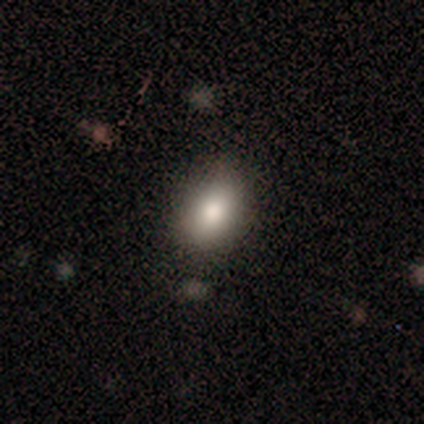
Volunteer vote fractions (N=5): A smooth galaxy with no disk features (100%) that is in between round and cigar-shaped (80%). Merging: none (60%).